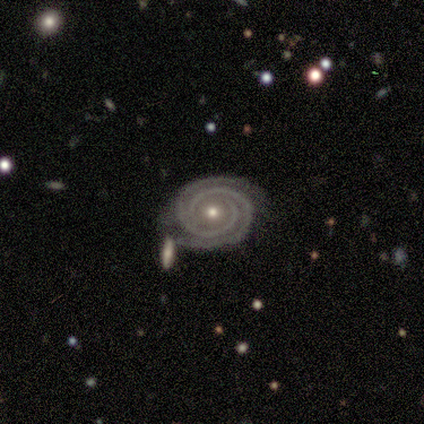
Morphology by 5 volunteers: Volunteers were most divided on "bulge size": small: 60%, moderate: 40%, dominant: 0%, large: 0%, none: 0%. More confident: smooth or featured — featured or disk (100%); edge-on disk — no (100%); bar — no (100%); spiral winding — tight (100%); spiral arm count — 2 (100%); spiral arms — yes (80%); merging — none (80%).